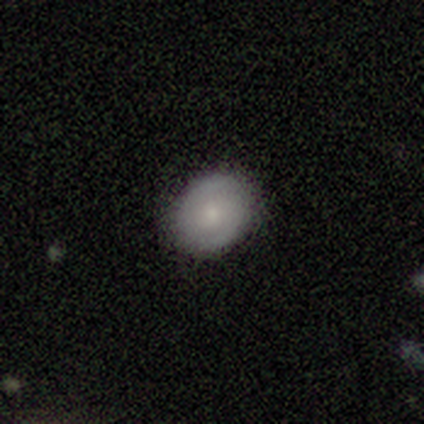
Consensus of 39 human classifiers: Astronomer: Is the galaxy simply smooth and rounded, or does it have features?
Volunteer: smooth — 49% (runner-up: featured or disk, 44%).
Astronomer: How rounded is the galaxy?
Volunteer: round — 68%.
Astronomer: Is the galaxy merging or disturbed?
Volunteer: none — 89%.